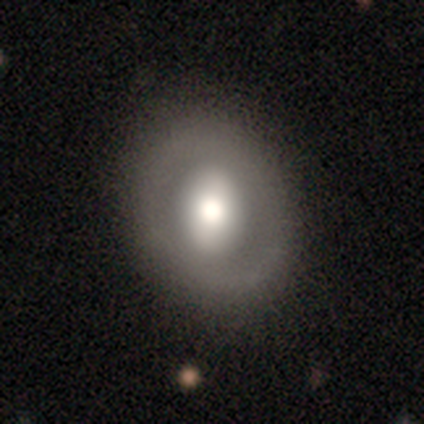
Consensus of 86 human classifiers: Smooth or featured?
  - smooth: 51% *
  - featured or disk: 40%
  - star or artifact: 9%
How rounded?
  - round: 75% *
  - in between: 25%
  - cigar-shaped: 0%
Merging?
  - none: 74% *
  - minor disturbance: 17%
  - major disturbance: 6%
  - merger: 3%